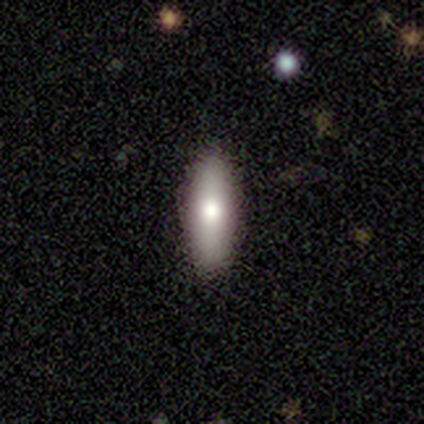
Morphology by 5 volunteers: Smooth or featured? smooth (60%)
How rounded? cigar-shaped (67%)
Merging? none (100%)